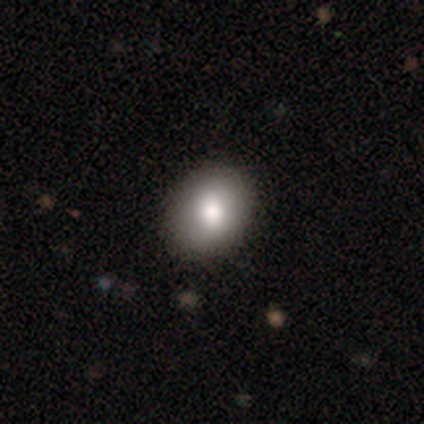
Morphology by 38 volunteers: smooth 76%, featured or disk 16%, star or artifact 8%. Down the decision tree: how rounded — in between (69%); merging — none (83%).